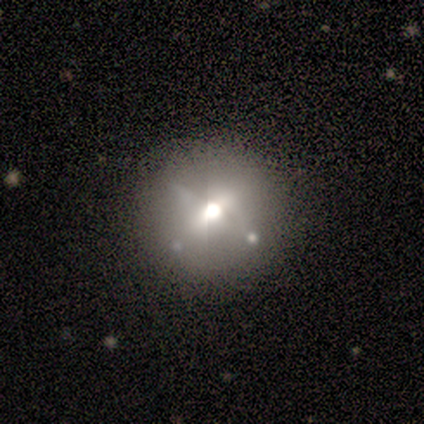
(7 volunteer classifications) Smooth or featured? 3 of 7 (43%) said featured or disk. Edge-on disk? 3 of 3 (100%) said no. Bar? 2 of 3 (67%) said weak. Spiral arms? 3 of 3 (100%) said no. Bulge size? 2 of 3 (67%) said large. Merging? 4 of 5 (80%) said none.